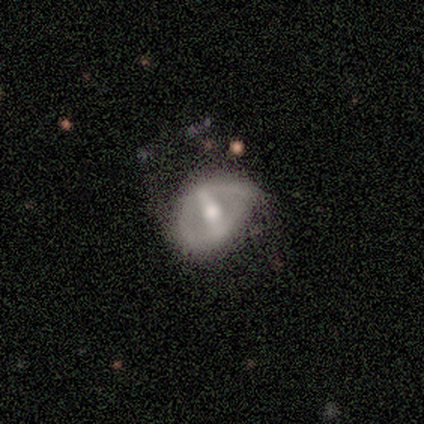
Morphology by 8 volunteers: featured or disk 88%, smooth 12%, star or artifact 0%. Down the decision tree: edge-on disk — no (86%); bar — strong (83%); spiral arms — no (83%); bulge size — moderate (83%); merging — minor disturbance (88%).